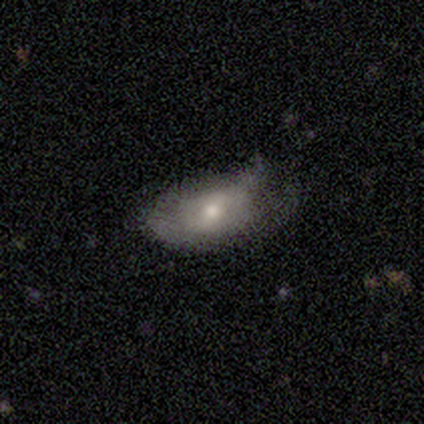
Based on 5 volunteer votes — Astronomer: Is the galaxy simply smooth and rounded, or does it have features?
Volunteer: smooth — 60% (runner-up: featured or disk, 40%).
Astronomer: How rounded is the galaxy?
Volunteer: in between — 100%.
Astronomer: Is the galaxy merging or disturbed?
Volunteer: minor disturbance — 60% (runner-up: none, 40%).